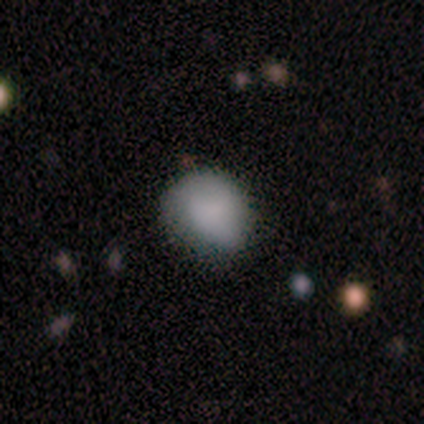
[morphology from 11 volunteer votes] smooth_or_featured: smooth (p=0.91) [alt: star or artifact p=0.09]
how_rounded: round (p=0.80) [alt: in between p=0.20]
merging: none (p=0.60) [alt: minor disturbance p=0.30]